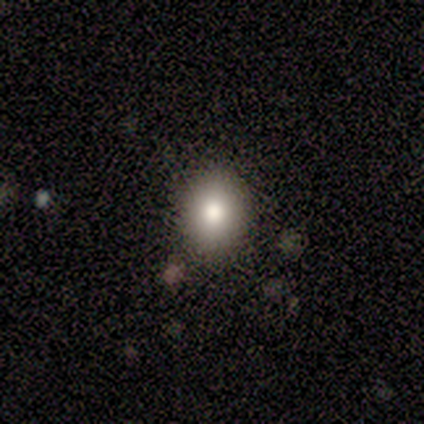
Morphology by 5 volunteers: Overall: smooth (100%). How rounded: round (60%; in between 40%). Merging: none (60%; minor disturbance 40%).